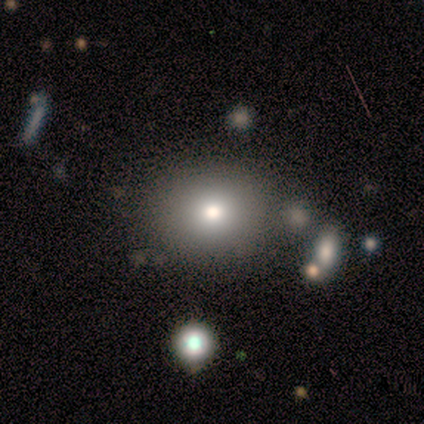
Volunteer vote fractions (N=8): Smooth or featured: smooth — 88% (star or artifact — 12%)
How rounded: round — 57% (in between — 29%)
Merging: none — 57% (minor disturbance — 29%)